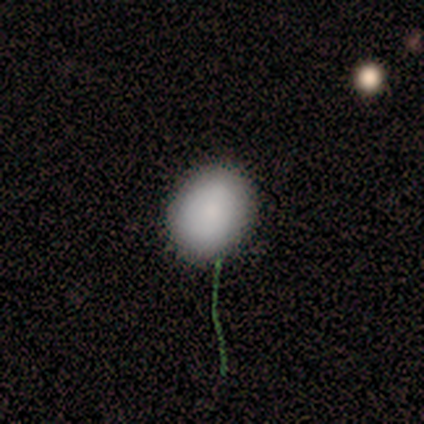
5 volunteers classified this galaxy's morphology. This is clearly a smooth galaxy (100%). How rounded: clearly in between (80%). Merging: likely none (60%).